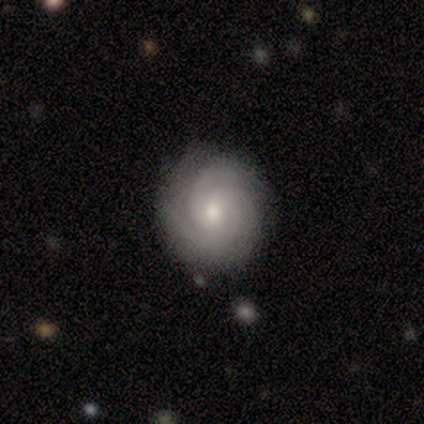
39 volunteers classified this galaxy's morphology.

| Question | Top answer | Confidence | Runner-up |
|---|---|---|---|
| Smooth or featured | featured or disk | 87% | smooth (10%) |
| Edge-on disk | no | 100% | — |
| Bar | no | 74% | weak (18%) |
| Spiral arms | yes | 97% | no (3%) |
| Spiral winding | tight | 67% | medium (27%) |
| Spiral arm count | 3 | 36% | can't tell (24%) |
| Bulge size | small | 74% | moderate (26%) |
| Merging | none | 87% | minor disturbance (8%) |